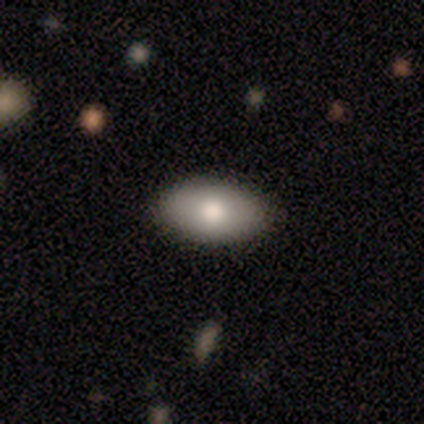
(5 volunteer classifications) A smooth galaxy with no disk features (80%) that is in between round and cigar-shaped (100%). Merging: none (100%).